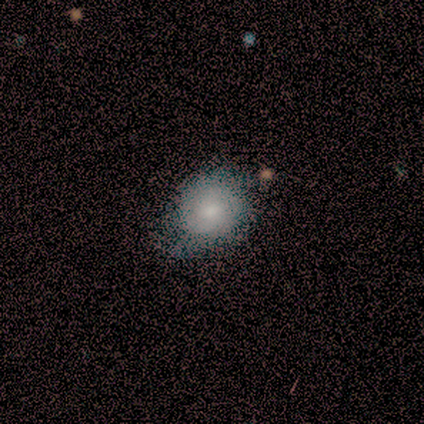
Smooth or featured?
  - smooth: 61% *
  - featured or disk: 34%
  - star or artifact: 5%
How rounded?
  - round: 57% *
  - in between: 43%
  - cigar-shaped: 0%
Merging?
  - none: 50% *
  - minor disturbance: 22%
  - major disturbance: 3%
  - merger: 0%